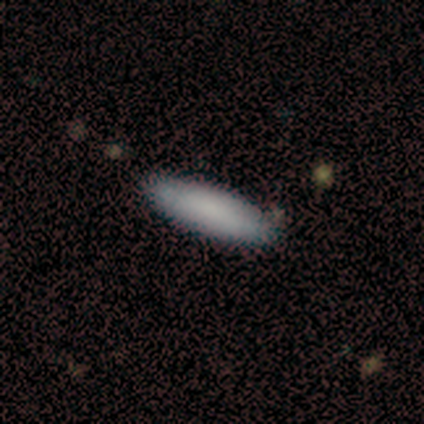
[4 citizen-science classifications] Morphology: type=smooth (75%); roundness=in between (67%); merging=none (75%).